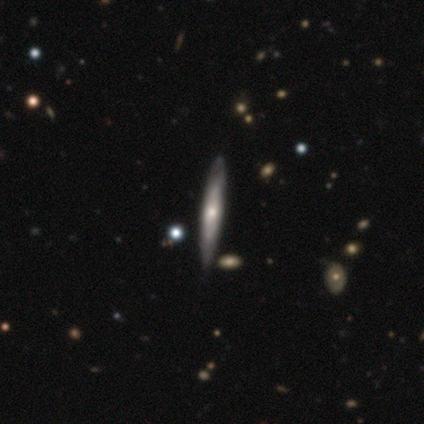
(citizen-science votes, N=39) featured or disk 69%, smooth 26%, star or artifact 5%. Down the decision tree: edge-on disk — yes (78%); edge-on bulge — rounded (76%); merging — none (76%).